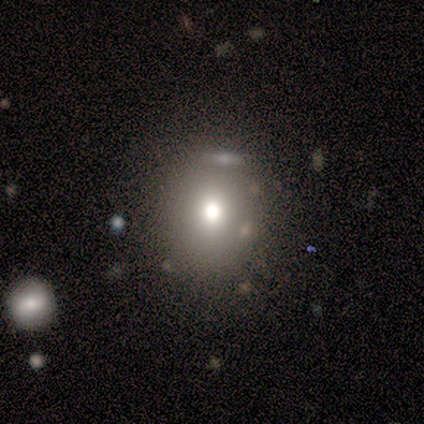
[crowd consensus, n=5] Smooth or featured? smooth (40%, tied with featured or disk)
How rounded? round (100%)
Merging? none (75%)